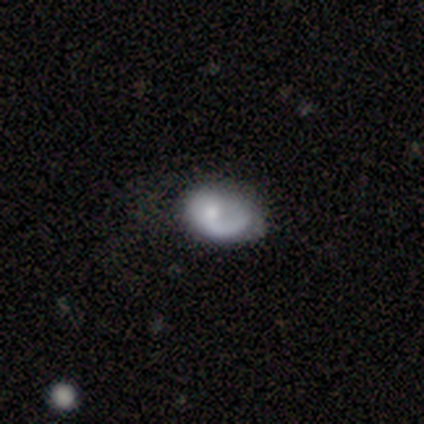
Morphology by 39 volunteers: smooth_or_featured: featured or disk (p=0.74) [alt: smooth p=0.23]
disk_edge_on: no (p=1.00)
bar: no (p=0.86) [alt: weak p=0.14]
has_spiral_arms: yes (p=0.93) [alt: no p=0.07]
spiral_winding: loose (p=0.44) [alt: medium p=0.30]
spiral_arm_count: 1 (p=0.96) [alt: 2 p=0.04]
bulge_size: moderate (p=0.45) [alt: small p=0.41]
merging: none (p=0.39) [alt: minor disturbance p=0.18]